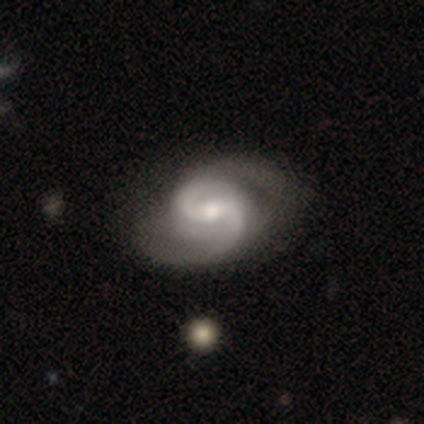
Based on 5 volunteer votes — Smooth or featured: featured or disk — 100%
Edge-on disk: no — 100%
Bar: weak — 100%
Spiral arms: yes — 100%
Spiral winding: medium — 80% (loose — 20%)
Spiral arm count: 2 — 100%
Bulge size: moderate — 60% (small — 40%)
Merging: none — 80% (minor disturbance — 20%)